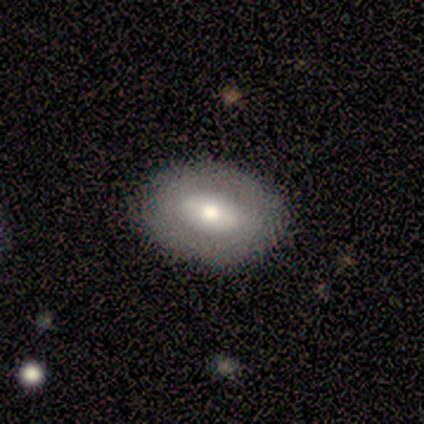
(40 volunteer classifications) smooth-or-featured: smooth: 57% | featured or disk: 40% | star or artifact: 2%
  how-rounded: in between: 83% | round: 17% | cigar-shaped: 0%
  merging: none: 85% | minor disturbance: 13% | major disturbance: 3% | merger: 0%